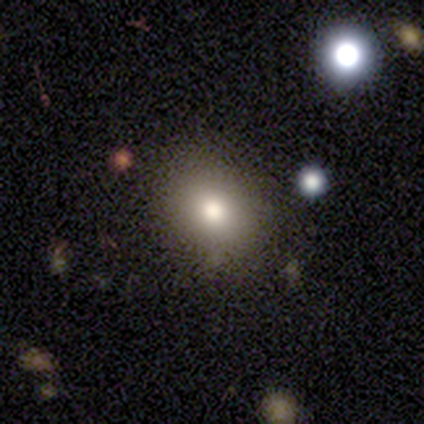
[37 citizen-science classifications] Morphology: type=smooth (78%); roundness=round (59%); merging=none (85%).